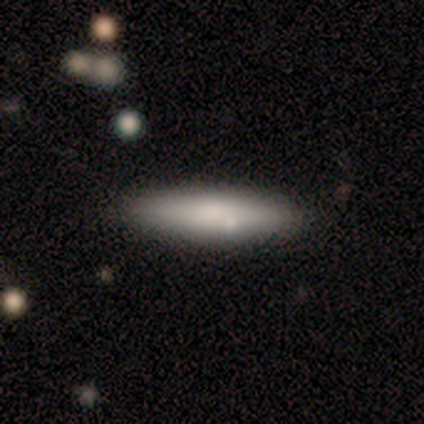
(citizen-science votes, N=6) Volunteers were most divided on "how rounded": cigar-shaped: 80%, in between: 20%, round: 0%. More confident: smooth or featured — smooth (83%); merging — none (83%).